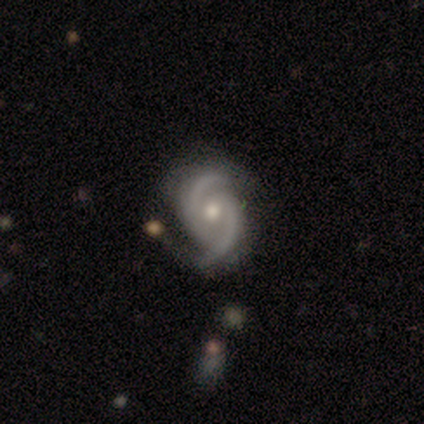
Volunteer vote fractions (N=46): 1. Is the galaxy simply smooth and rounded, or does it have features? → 93% featured or disk, 7% star or artifact, 0% smooth.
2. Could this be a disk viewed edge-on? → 93% no, 7% yes.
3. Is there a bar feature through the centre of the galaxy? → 55% no, 38% weak, 8% strong.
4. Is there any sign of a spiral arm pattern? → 100% yes, 0% no.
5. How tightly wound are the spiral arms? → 48% tight (tied), 48% medium (tied), 5% loose.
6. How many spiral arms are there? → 98% 2, 2% 3, 0% 1, 0% 4, 0% more than 4, 0% can't tell.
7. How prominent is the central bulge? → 75% moderate, 20% small, 5% none, 0% dominant, 0% large.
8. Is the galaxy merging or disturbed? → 74% none, 16% minor disturbance, 7% major disturbance, 2% merger.